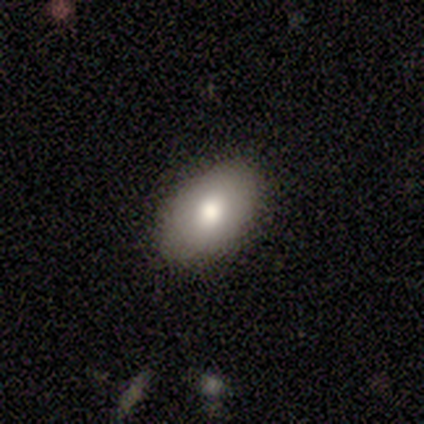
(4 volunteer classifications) Volunteers were most divided on "how rounded": in between: 75%, round: 25%, cigar-shaped: 0%. More confident: smooth or featured — smooth (100%); merging — none (100%).